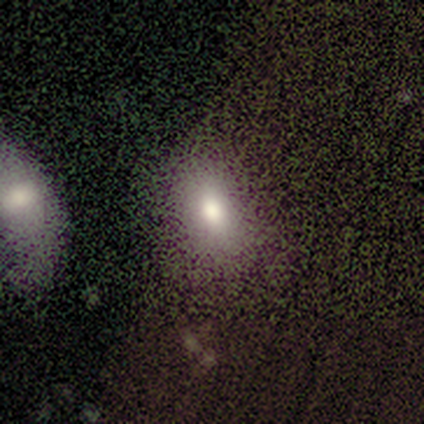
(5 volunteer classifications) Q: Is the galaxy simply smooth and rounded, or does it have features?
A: smooth — 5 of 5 (100%).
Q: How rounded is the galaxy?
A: in between — 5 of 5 (100%).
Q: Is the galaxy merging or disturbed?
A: none — 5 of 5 (100%).